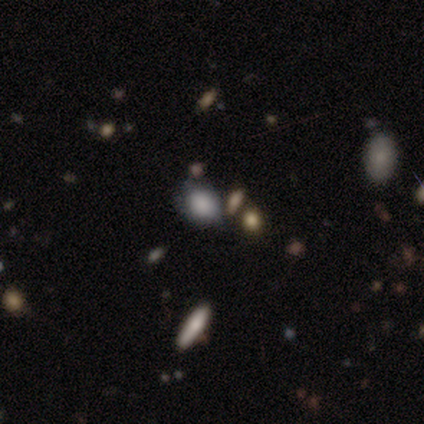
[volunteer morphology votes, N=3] Smooth or featured: smooth — 67% (featured or disk — 33%)
How rounded: in between — 100%
Merging: minor disturbance — 67% (none — 33%)